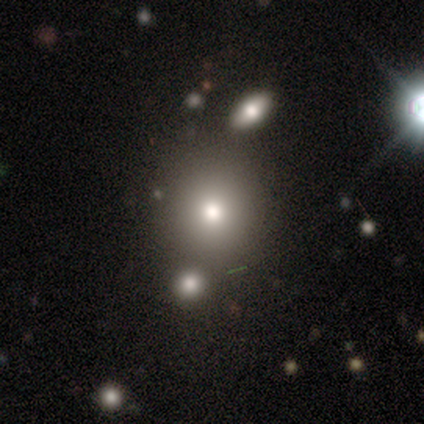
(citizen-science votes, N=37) smooth_or_featured: smooth (p=0.43) [alt: star or artifact p=0.32]
how_rounded: round (p=1.00)
merging: none (p=0.80) [alt: merger p=0.16]